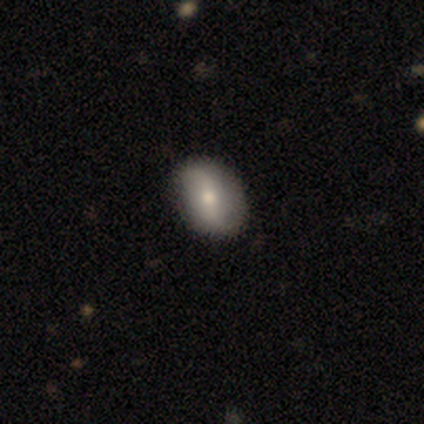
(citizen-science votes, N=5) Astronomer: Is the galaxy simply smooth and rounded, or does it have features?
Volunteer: smooth — 40%, tied with featured or disk at 40%.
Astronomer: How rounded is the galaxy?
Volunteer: in between — 100%.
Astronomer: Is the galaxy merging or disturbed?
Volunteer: none — 75%.